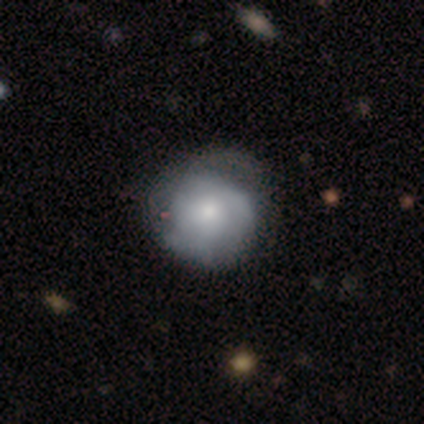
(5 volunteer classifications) featured or disk 80%, smooth 20%, star or artifact 0%. Down the decision tree: edge-on disk — no (100%); bar — no (75%); spiral arms — yes (50%, tied with no); spiral arm count — 2 (50%, tied with can't tell); spiral winding — tight (100%); bulge size — moderate (75%); merging — major disturbance (60%).